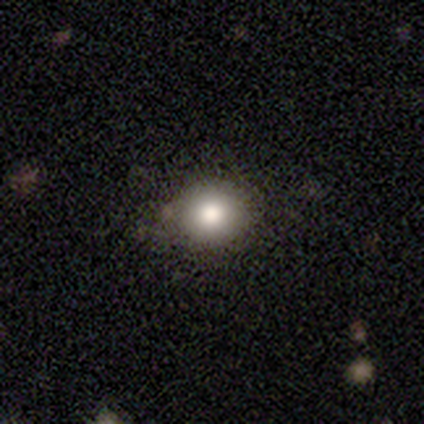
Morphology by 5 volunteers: Overall: smooth (60%; star or artifact 40%). How rounded: round (67%; in between 33%). Merging: none (67%; minor disturbance 33%).